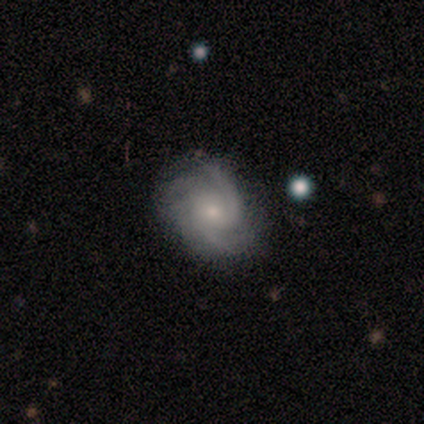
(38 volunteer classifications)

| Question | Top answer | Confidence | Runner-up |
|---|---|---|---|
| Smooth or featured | featured or disk | 84% | smooth (8%) |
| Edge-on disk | no | 100% | — |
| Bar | no | 66% | weak (28%) |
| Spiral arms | yes | 100% | — |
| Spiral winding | medium | 59% | tight (34%) |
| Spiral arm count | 3 | 44% | 2 (34%) |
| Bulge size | small | 84% | moderate (16%) |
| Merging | none | 71% | minor disturbance (17%) |